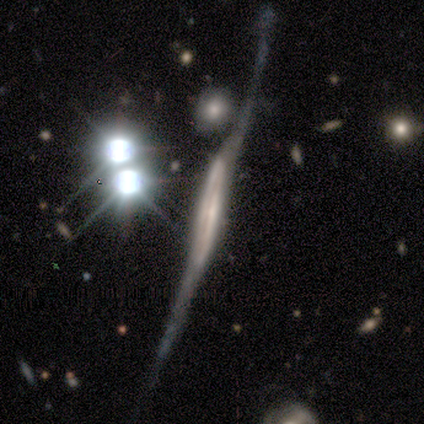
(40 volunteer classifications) Smooth or featured? featured or disk (82%)
Edge-on disk? yes (91%)
Edge-on bulge? none (53%)
Merging? major disturbance (38%)